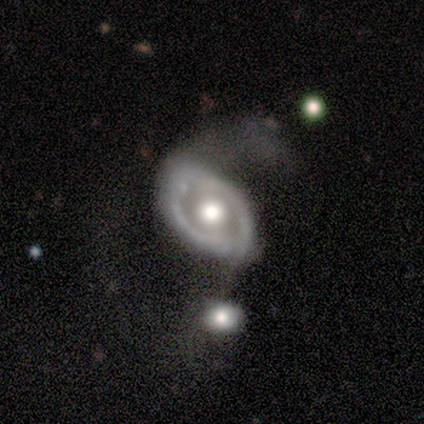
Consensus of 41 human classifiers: Morphology: type=featured or disk (80%); edge-on=no (94%); bar=no (71%); spiral arms=yes (52%); winding=loose (50%); arm count=2 (88%); bulge=moderate (58%); merging=major disturbance (32%).